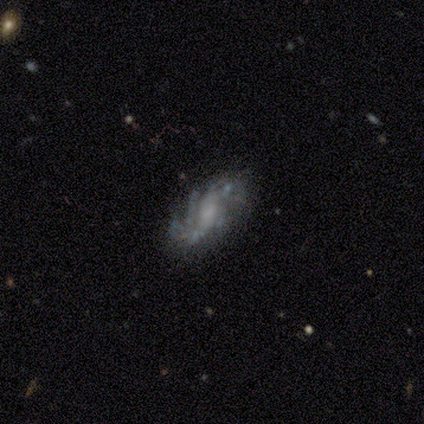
Volunteers were most divided on "bar" (2-way tie): weak: 50%, no: 50%, strong: 0%; "bulge size" (2-way tie): small: 34%, none: 34%, moderate: 24%, large: 8%, dominant: 0%. Remaining: spiral arms — yes (97%); edge-on disk — no (93%); smooth or featured — featured or disk (85%); merging — none (67%); spiral winding — medium (49%); spiral arm count — can't tell (43%).